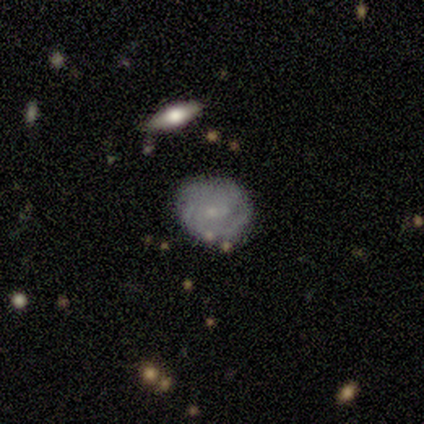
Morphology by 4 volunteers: Q: Smooth or featured?
A: featured or disk (100%)
Q: Edge-on disk?
A: no (100%)
Q: Bar?
A: no (75%); runner-up: weak (25%)
Q: Spiral arms?
A: yes (75%); runner-up: no (25%)
Q: Spiral winding?
A: tight (67%); runner-up: medium (33%)
Q: Spiral arm count?
A: 1 (33%); tied with: 3 (33%); can't tell (33%)
Q: Bulge size?
A: small (100%)
Q: Merging?
A: none (75%); runner-up: minor disturbance (25%)